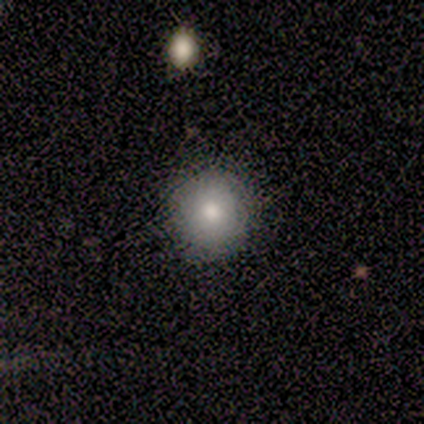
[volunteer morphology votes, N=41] A smooth galaxy with no disk features (80%) that is round (85%). Merging: none (86%).